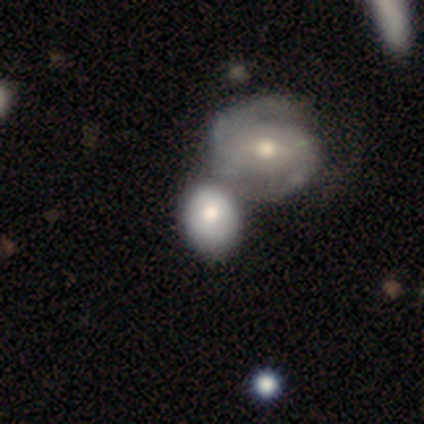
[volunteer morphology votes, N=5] Smooth or featured: smooth — 100%
How rounded: in between — 60% (round — 40%)
Merging: none — 40% (tied with merger — 40%)